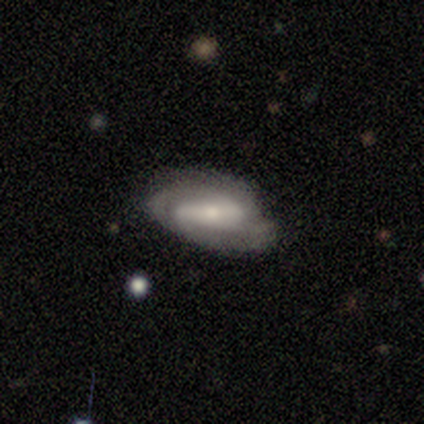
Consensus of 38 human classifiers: Q: Smooth or featured?
A: featured or disk (76%); runner-up: smooth (21%)
Q: Edge-on disk?
A: no (97%); runner-up: yes (3%)
Q: Bar?
A: strong (61%); runner-up: weak (25%)
Q: Spiral arms?
A: yes (89%); runner-up: no (11%)
Q: Spiral winding?
A: tight (56%); runner-up: medium (36%)
Q: Spiral arm count?
A: 2 (44%); runner-up: 3 (24%)
Q: Bulge size?
A: small (43%); runner-up: moderate (39%)
Q: Merging?
A: none (54%); runner-up: minor disturbance (30%)